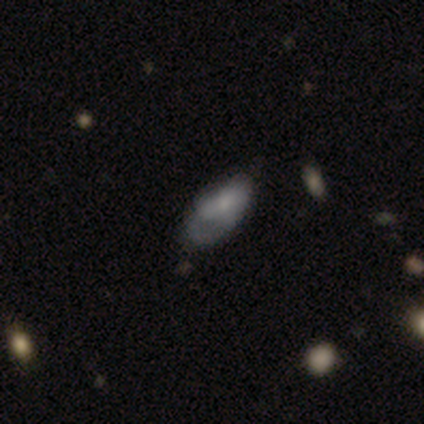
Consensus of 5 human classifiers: Q: Smooth or featured?
A: smooth (60%); runner-up: featured or disk (40%)
Q: How rounded?
A: in between (100%)
Q: Merging?
A: none (40%); tied with: minor disturbance (40%)